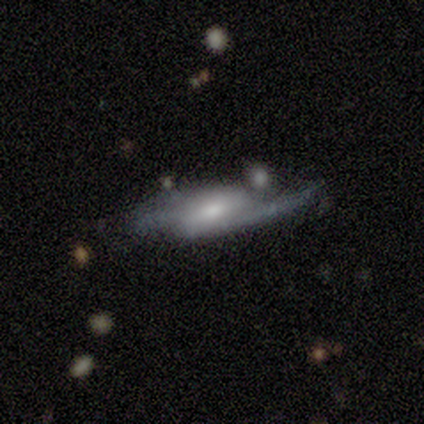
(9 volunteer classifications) A featured or disk galaxy (67%) with no bar (75%), 2 (75%) loose (75%) spiral arms (100%) and a small central bulge (75%). Merging: none (44%, tied with major disturbance).